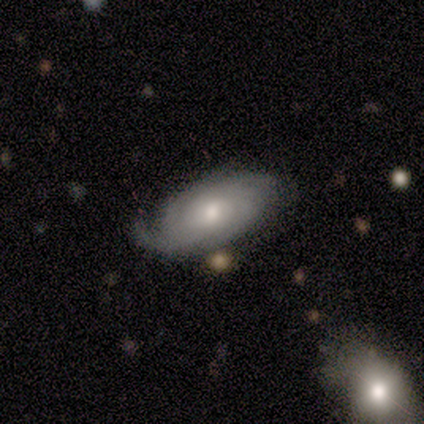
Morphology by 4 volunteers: A featured or disk galaxy (75%) with a weak bar (67%), 2 (33%, tied with 3 and can't tell) tight (100%) spiral arms (100%) and a moderate central bulge (67%). Merging: none (50%).